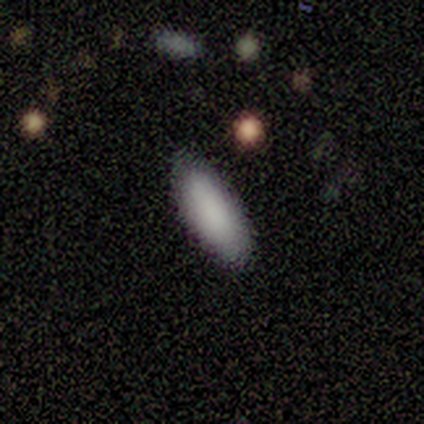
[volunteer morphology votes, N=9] smooth_or_featured: smooth (p=1.00)
how_rounded: in between (p=0.89) [alt: cigar-shaped p=0.11]
merging: none (p=0.89) [alt: minor disturbance p=0.11]